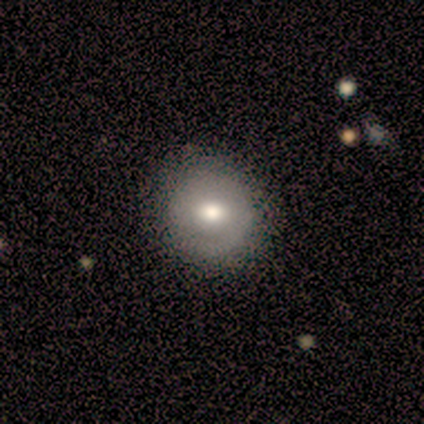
Smooth or featured: smooth — 60% (featured or disk — 40%)
How rounded: round — 100%
Merging: none — 100%